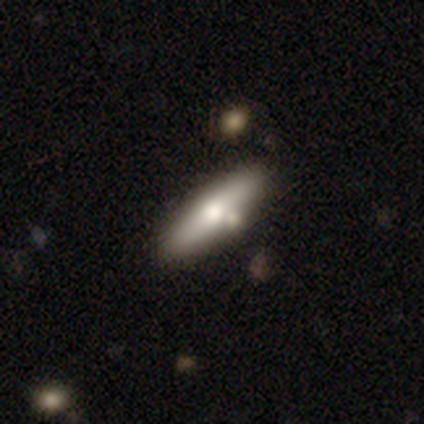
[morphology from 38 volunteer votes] Smooth or featured: smooth — 47% (featured or disk — 42%)
How rounded: cigar-shaped — 67% (in between — 33%)
Merging: none — 68% (merger — 15%)